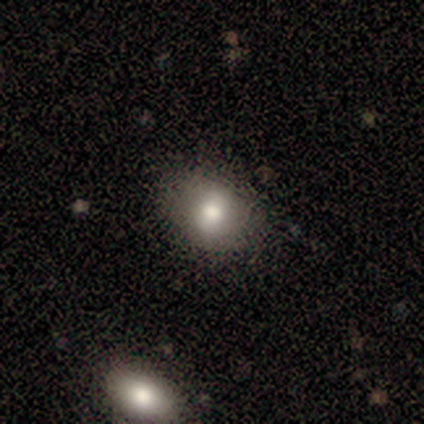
Smooth or featured: smooth — 80% (star or artifact — 20%)
How rounded: round — 75% (in between — 25%)
Merging: none — 100%